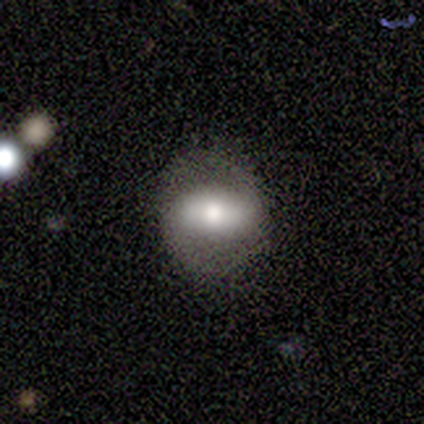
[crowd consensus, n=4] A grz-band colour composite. It shows a smooth galaxy with no disk features (50%, tied with featured or disk) that is in between round and cigar-shaped (100%). Merging: none (100%).